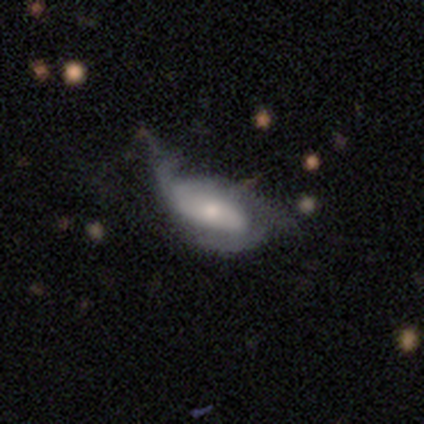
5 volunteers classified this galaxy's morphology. Smooth or featured?
  - featured or disk: 80% *
  - smooth: 20%
  - star or artifact: 0%
Edge-on disk?
  - no: 100% *
  - yes: 0%
Bar?
  - no: 75% *
  - strong: 25%
  - weak: 0%
Spiral arms?
  - yes: 50% * (tied)
  - no: 50% * (tied)
Spiral winding?
  - medium: 50% * (tied)
  - loose: 50% * (tied)
  - tight: 0%
Spiral arm count?
  - can't tell: 100% *
  - 1: 0%
  - 2: 0%
  - 3: 0%
  - 4: 0%
  - more than 4: 0%
Bulge size?
  - small: 50% *
  - moderate: 25%
  - none: 25%
  - dominant: 0%
  - large: 0%
Merging?
  - major disturbance: 80% *
  - minor disturbance: 20%
  - none: 0%
  - merger: 0%